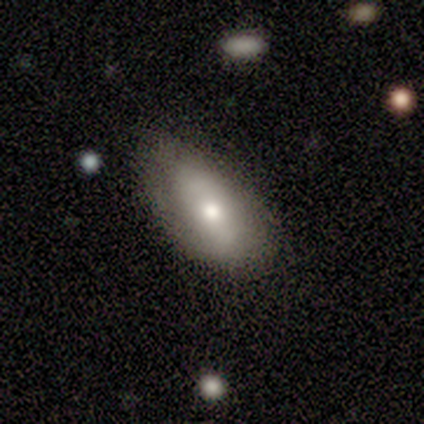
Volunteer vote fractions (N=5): Morphology: type=smooth (60%); roundness=in between (100%); merging=none (80%).